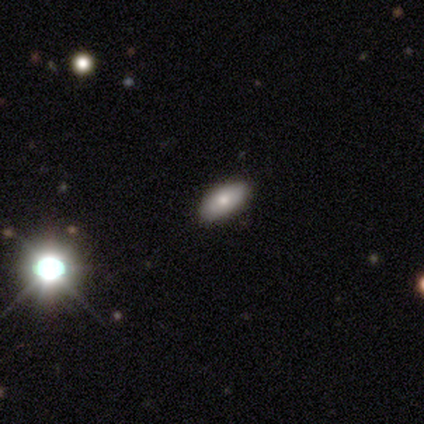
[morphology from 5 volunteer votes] This appears to be a smooth galaxy with no disk features (100%) that is in between round and cigar-shaped (100%). Merging: none (80%).